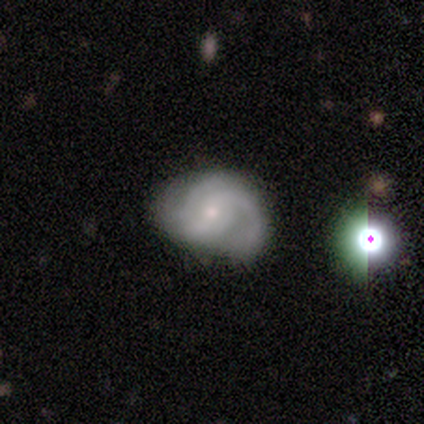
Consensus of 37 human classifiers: Volunteers were most divided on "bar" (2-way tie): weak: 44%, no: 44%, strong: 12%; "merging" (2-way tie): none: 38%, minor disturbance: 38%, major disturbance: 18%, merger: 6%. Remaining: edge-on disk — no (100%); spiral arms — yes (92%); smooth or featured — featured or disk (68%); spiral winding — tight (57%); bulge size — small (56%); spiral arm count — 2 (39%).